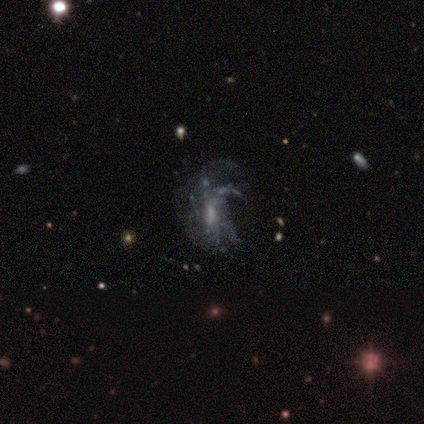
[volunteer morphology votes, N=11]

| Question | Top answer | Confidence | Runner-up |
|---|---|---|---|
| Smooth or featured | featured or disk | 82% | star or artifact (18%) |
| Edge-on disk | no | 100% | — |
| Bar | weak | 44% | tied: no (44%) |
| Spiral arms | no | 67% | yes (33%) |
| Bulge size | moderate | 56% | small (22%) |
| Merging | minor disturbance | 44% | major disturbance (33%) |